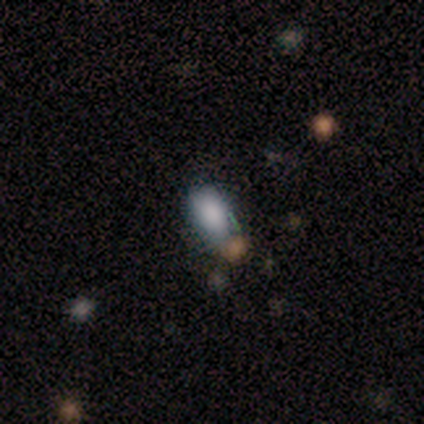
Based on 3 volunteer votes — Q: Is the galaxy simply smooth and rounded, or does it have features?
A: star or artifact — 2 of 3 (67%).